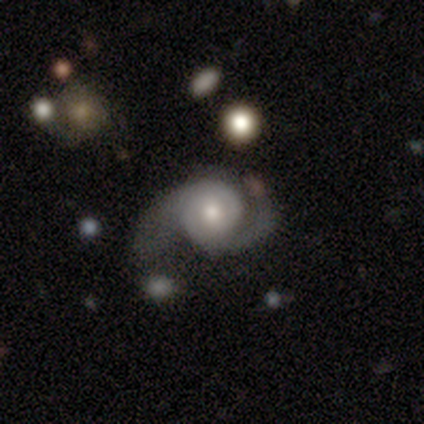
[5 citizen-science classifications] smooth_or_featured: featured or disk (p=0.80) [alt: smooth p=0.20]
disk_edge_on: no (p=1.00)
bar: no (p=0.75) [alt: weak p=0.25]
has_spiral_arms: yes (p=1.00)
spiral_winding: medium (p=0.50) [alt: tight p=0.25]
spiral_arm_count: 2 (p=1.00)
bulge_size: moderate (p=1.00)
merging: none (p=0.60) [alt: minor disturbance p=0.20]